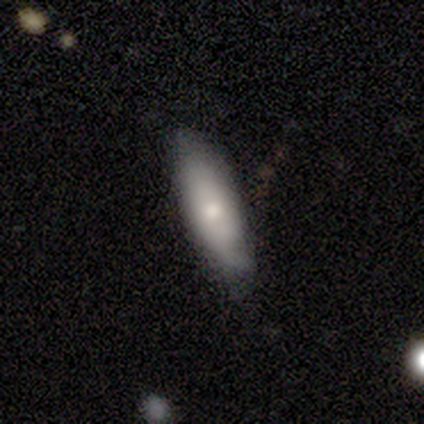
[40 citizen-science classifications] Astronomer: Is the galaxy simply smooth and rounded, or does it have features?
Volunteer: smooth — 57% (runner-up: featured or disk, 35%).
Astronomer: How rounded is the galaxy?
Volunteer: in between — 52% (runner-up: cigar-shaped, 48%).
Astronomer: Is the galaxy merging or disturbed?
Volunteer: none — 57% (runner-up: minor disturbance, 41%).